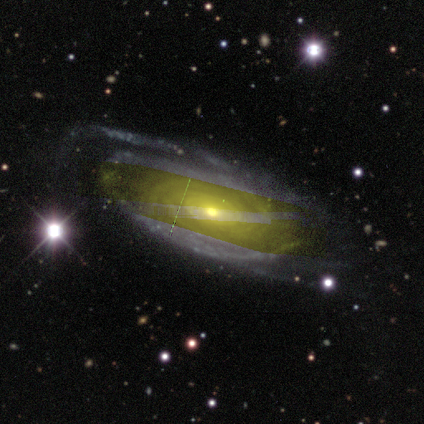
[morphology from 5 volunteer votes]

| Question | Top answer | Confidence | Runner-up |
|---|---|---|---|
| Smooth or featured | featured or disk | 80% | smooth (20%) |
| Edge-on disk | no | 100% | — |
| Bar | no | 100% | — |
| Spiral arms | yes | 100% | — |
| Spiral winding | tight | 75% | medium (25%) |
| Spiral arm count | can't tell | 50% | 4 (25%) |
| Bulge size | moderate | 75% | small (25%) |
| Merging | none | 80% | major disturbance (20%) |